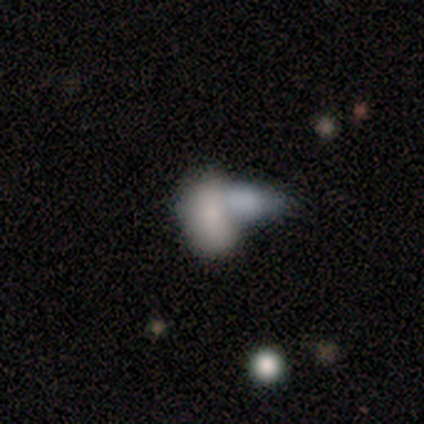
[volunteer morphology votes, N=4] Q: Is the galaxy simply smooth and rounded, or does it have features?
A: smooth — 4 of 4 (100%).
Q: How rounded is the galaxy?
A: in between — 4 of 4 (100%).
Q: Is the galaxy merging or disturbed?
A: none — 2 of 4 (50%, tied with merger).